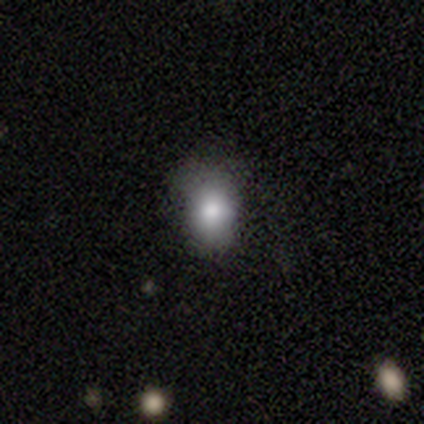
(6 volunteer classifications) Morphology: type=smooth (83%); roundness=in between (80%); merging=none (50%, tied with minor disturbance).